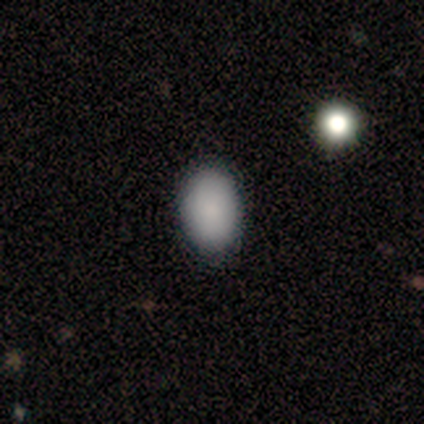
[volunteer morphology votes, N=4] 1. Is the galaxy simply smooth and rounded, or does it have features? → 100% smooth, 0% featured or disk, 0% star or artifact.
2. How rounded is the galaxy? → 100% in between, 0% round, 0% cigar-shaped.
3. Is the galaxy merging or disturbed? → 50% none, 25% minor disturbance, 25% major disturbance, 0% merger.